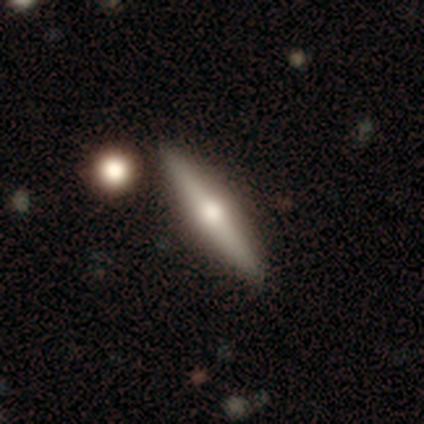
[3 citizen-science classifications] Smooth or featured? 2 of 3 (67%) said featured or disk. Edge-on disk? 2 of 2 (100%) said yes. Edge-on bulge? 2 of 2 (100%) said rounded. Merging? 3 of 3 (100%) said none.